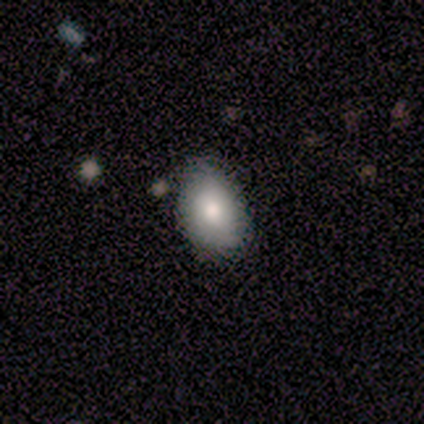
Morphology: type=smooth (100%); roundness=in between (100%); merging=none (60%).